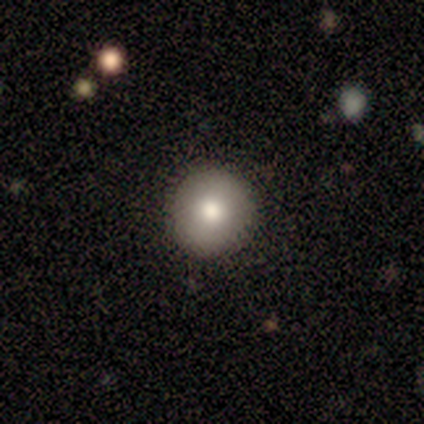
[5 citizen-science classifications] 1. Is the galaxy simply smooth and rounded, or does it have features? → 80% smooth, 20% featured or disk, 0% star or artifact.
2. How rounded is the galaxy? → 100% round, 0% in between, 0% cigar-shaped.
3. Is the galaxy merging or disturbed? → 80% none, 20% minor disturbance, 0% major disturbance, 0% merger.